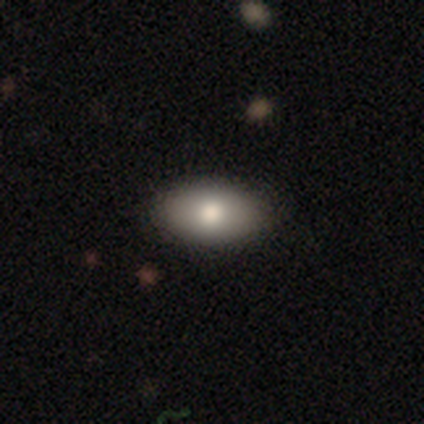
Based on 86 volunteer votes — Q: Smooth or featured?
A: smooth (80%); runner-up: featured or disk (15%)
Q: How rounded?
A: in between (90%); runner-up: round (7%)
Q: Merging?
A: none (82%); runner-up: minor disturbance (16%)